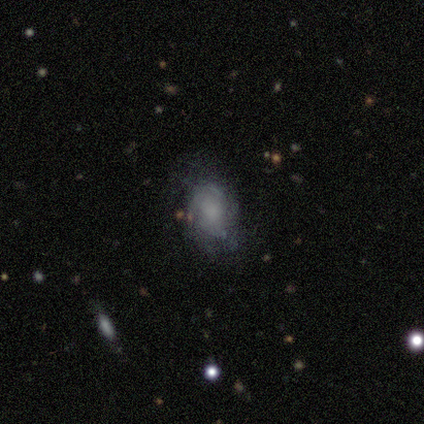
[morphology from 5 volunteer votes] smooth 100%, featured or disk 0%, star or artifact 0%. Down the decision tree: how rounded — in between (80%); merging — none (80%).